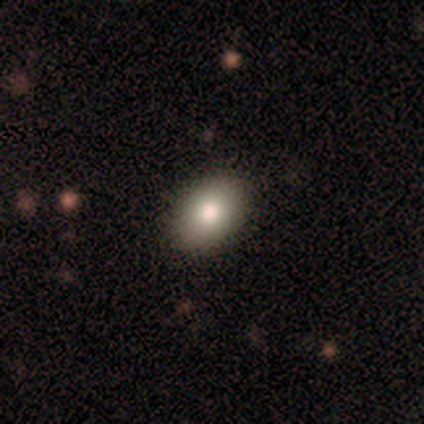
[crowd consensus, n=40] smooth_or_featured: smooth (p=0.88) [alt: featured or disk p=0.07]
how_rounded: in between (p=0.89) [alt: round p=0.11]
merging: none (p=0.97) [alt: major disturbance p=0.03]